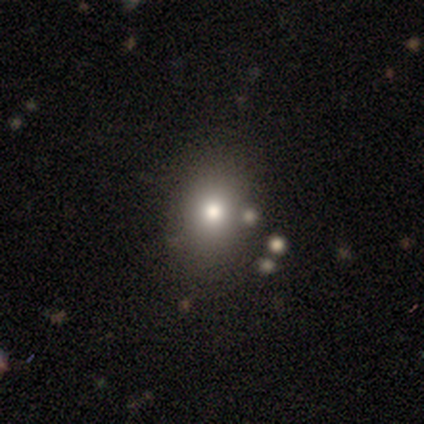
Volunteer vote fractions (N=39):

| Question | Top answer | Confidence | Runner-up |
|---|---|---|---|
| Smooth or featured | smooth | 69% | featured or disk (21%) |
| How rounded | round | 56% | in between (41%) |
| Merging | none | 77% | minor disturbance (11%) |